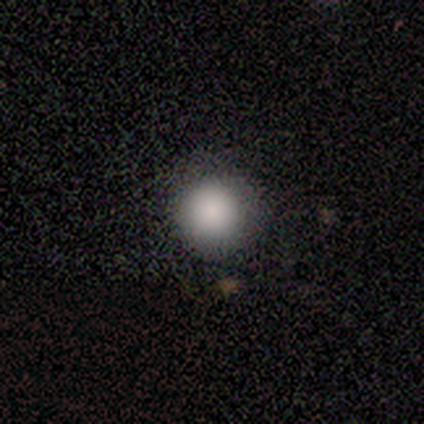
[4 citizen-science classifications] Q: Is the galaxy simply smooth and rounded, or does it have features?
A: smooth — 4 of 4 (100%).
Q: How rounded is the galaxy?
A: round — 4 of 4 (100%).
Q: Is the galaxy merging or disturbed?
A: none — 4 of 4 (100%).